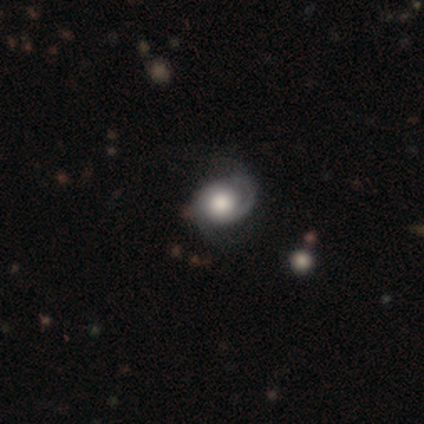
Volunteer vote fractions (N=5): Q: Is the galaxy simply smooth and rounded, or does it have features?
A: featured or disk — 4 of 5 (80%).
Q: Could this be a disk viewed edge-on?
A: no — 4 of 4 (100%).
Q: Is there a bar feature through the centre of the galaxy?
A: weak — 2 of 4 (50%, tied with no).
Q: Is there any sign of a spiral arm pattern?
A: yes — 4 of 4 (100%).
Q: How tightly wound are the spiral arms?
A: tight — 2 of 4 (50%, tied with medium).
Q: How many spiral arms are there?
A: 2 — 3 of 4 (75%).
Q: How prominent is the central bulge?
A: moderate — 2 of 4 (50%).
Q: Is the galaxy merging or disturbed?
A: none — 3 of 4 (75%).